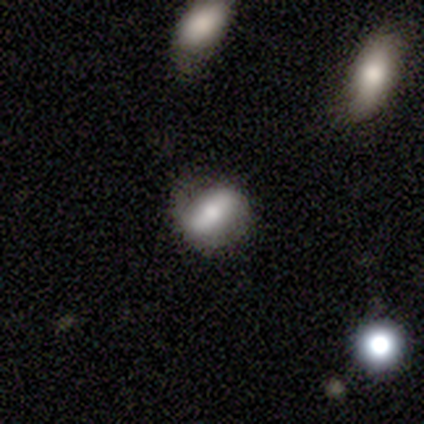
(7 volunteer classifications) Volunteers were most divided on "how rounded" (2-way tie): round: 50%, in between: 50%, cigar-shaped: 0%. More confident: merging — none (67%); smooth or featured — smooth (57%).